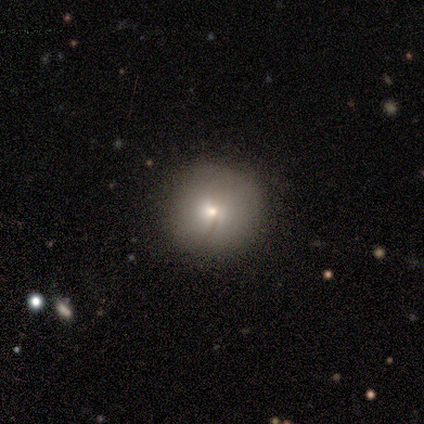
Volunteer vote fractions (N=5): Q: Smooth or featured?
A: smooth (100%)
Q: How rounded?
A: round (100%)
Q: Merging?
A: none (80%); runner-up: minor disturbance (20%)